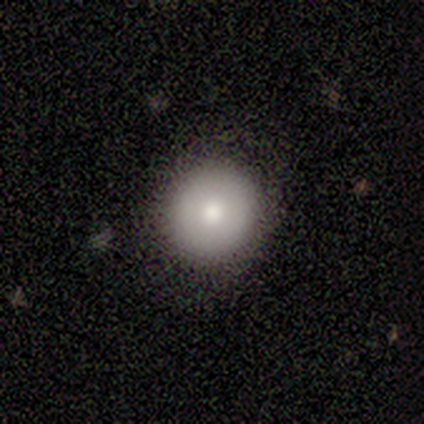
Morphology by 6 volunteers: Volunteers were most divided on "smooth or featured": smooth: 50%, featured or disk: 33%, star or artifact: 17%. More confident: how rounded — round (100%); merging — none (100%).